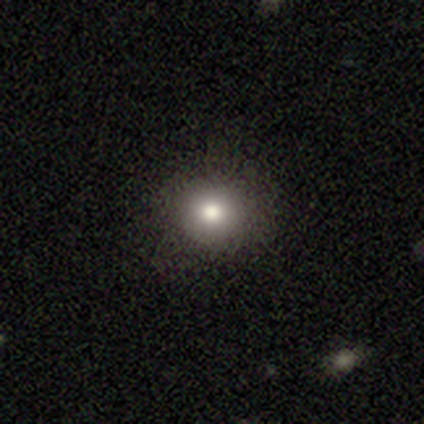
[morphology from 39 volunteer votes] Overall: smooth (77%). How rounded: round (87%). Merging: none (97%).